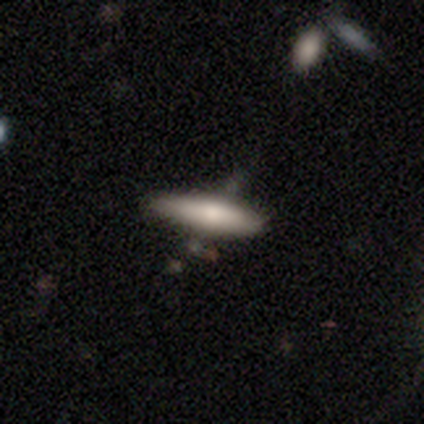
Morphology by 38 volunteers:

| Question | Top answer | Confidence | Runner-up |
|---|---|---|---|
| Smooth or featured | smooth | 76% | featured or disk (24%) |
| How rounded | cigar-shaped | 69% | in between (31%) |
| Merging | none | 63% | minor disturbance (21%) |